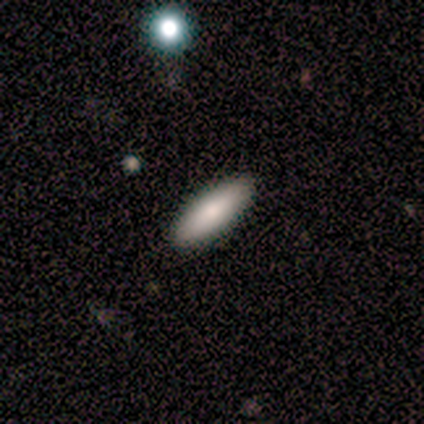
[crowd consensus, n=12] Q: Smooth or featured?
A: smooth (92%); runner-up: star or artifact (8%)
Q: How rounded?
A: in between (55%); runner-up: cigar-shaped (45%)
Q: Merging?
A: none (91%); runner-up: minor disturbance (9%)